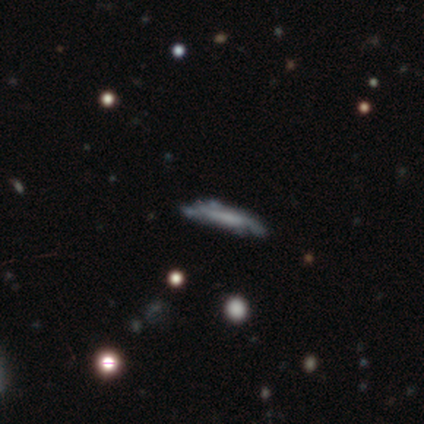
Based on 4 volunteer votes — This is possibly a featured or disk galaxy (50%). It is clearly viewed edge-on (100%). Edge-on bulge: possibly boxy (50%, tied with none). Merging: likely none (67%).